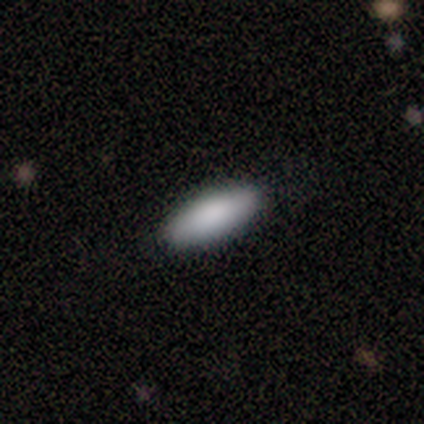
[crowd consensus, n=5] Morphology: type=smooth (100%); roundness=cigar-shaped (60%); merging=none (80%).